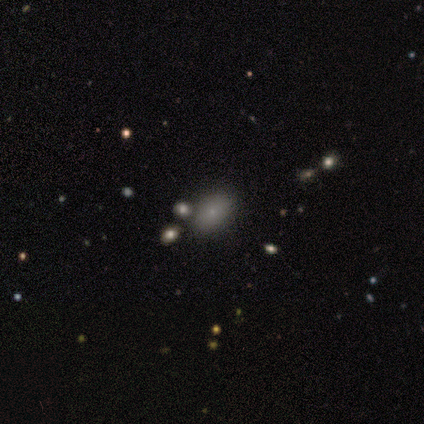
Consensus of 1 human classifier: Smooth or featured: smooth — 100%
How rounded: in between — 100%
Merging: minor disturbance — 100%